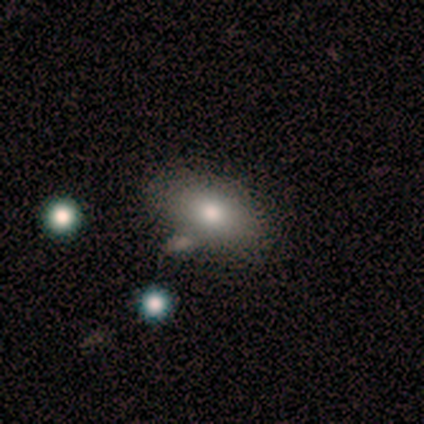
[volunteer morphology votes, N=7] This is clearly a smooth galaxy (100%). How rounded: clearly in between (100%). Merging: clearly none (100%).